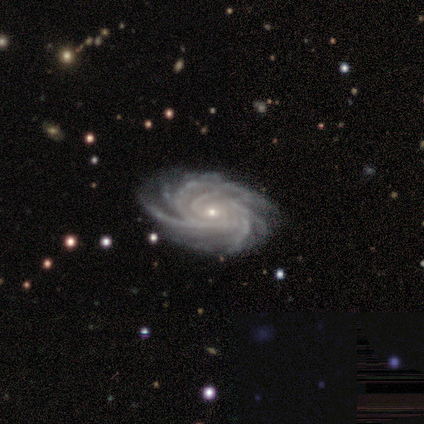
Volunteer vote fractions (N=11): This appears to be a featured or disk galaxy (100%) with no bar (64%), more than 4 (73%) tight (73%) spiral arms (100%) and a small central bulge (91%). Merging: none (82%).